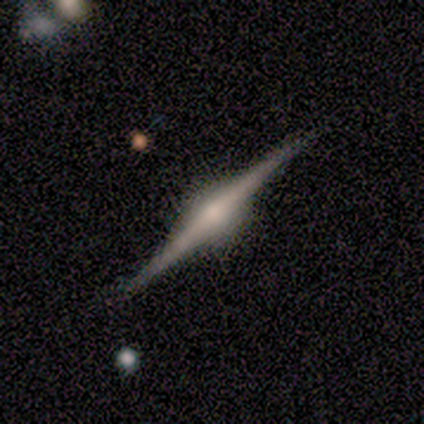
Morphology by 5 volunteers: featured or disk 100%, smooth 0%, star or artifact 0%. Down the decision tree: edge-on disk — yes (100%); edge-on bulge — rounded (60%); merging — none (100%).